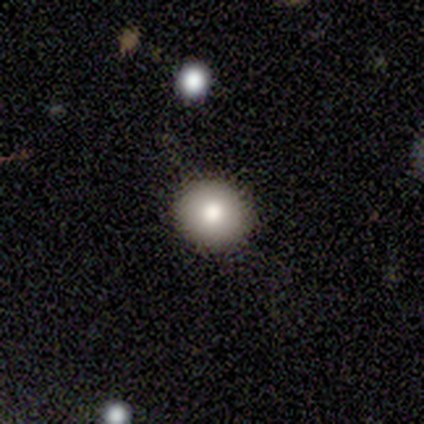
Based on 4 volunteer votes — Overall: smooth (100%). How rounded: round (75%). Merging: none (75%).